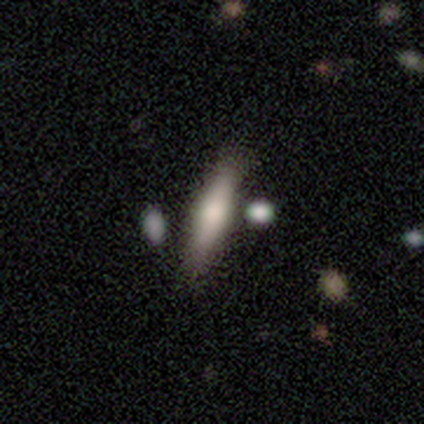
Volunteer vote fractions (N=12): featured or disk 50%, smooth 42%, star or artifact 8%. Down the decision tree: edge-on disk — yes (100%); edge-on bulge — rounded (67%); merging — none (91%).